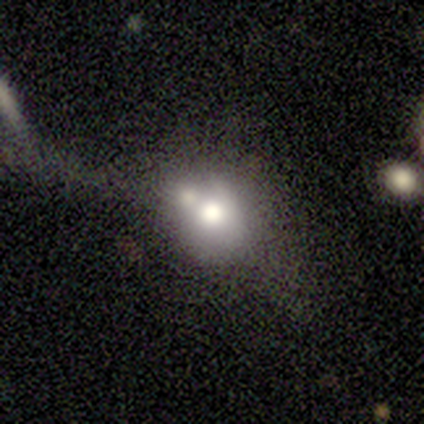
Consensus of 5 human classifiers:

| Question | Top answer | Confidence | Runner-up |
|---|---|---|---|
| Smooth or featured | smooth | 80% | star or artifact (20%) |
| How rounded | round | 50% | tied: in between (50%) |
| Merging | merger | 50% | none (25%) |